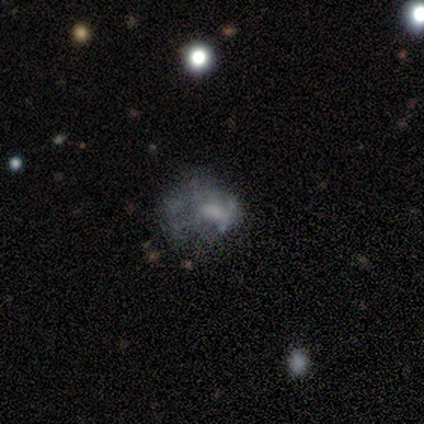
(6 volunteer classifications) smooth_or_featured: featured or disk (p=1.00)
disk_edge_on: no (p=1.00)
bar: no (p=0.50) [alt: weak p=0.33]
has_spiral_arms: no (p=0.83) [alt: yes p=0.17]
bulge_size: moderate (p=0.50) [alt: small p=0.33]
merging: none (p=0.50) [alt: major disturbance p=0.33]